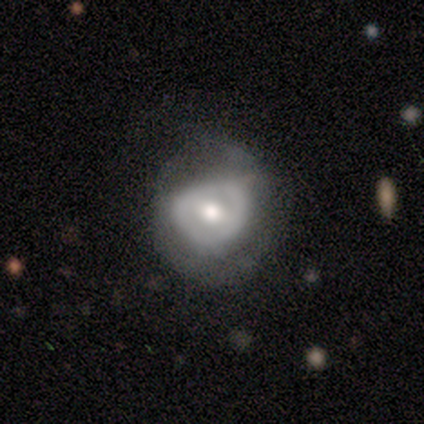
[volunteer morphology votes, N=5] This is marginally a featured or disk galaxy (40%, tied with star or artifact). It is possibly viewed edge-on (50%, tied with no). Edge-on bulge: clearly rounded (100%). Merging: marginally none (33%, tied with minor disturbance and major disturbance).